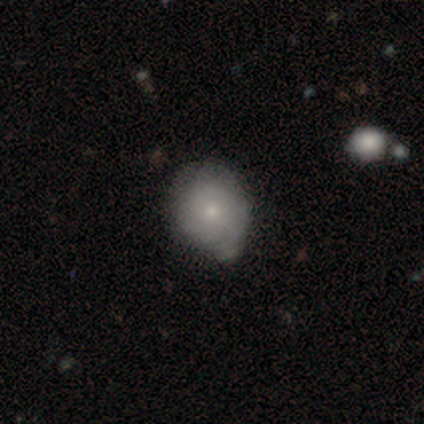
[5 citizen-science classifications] Smooth or featured?
  - smooth: 80% *
  - featured or disk: 20%
  - star or artifact: 0%
How rounded?
  - round: 100% *
  - in between: 0%
  - cigar-shaped: 0%
Merging?
  - minor disturbance: 100% *
  - none: 0%
  - major disturbance: 0%
  - merger: 0%